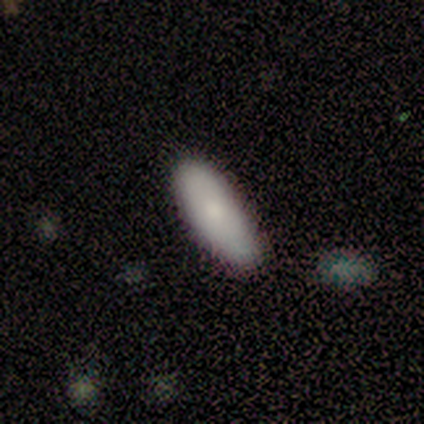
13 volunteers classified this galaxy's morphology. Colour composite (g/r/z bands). It shows a smooth galaxy with no disk features (62%) that is in between round and cigar-shaped (62%). Merging: none (50%).